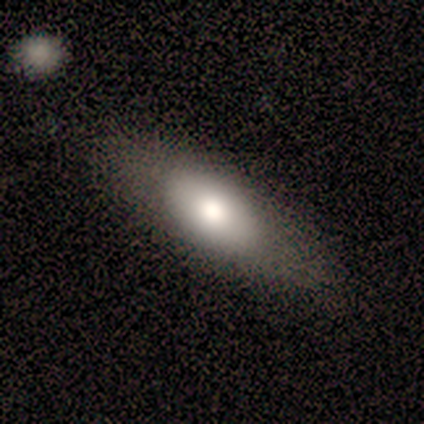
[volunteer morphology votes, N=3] smooth 67%, featured or disk 33%, star or artifact 0%. Down the decision tree: how rounded — in between (50%, tied with cigar-shaped); merging — none (67%).